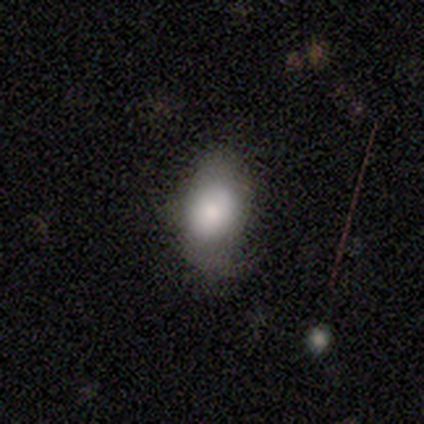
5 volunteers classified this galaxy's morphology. type=smooth (60%); roundness=in between (100%); merging=none (75%).